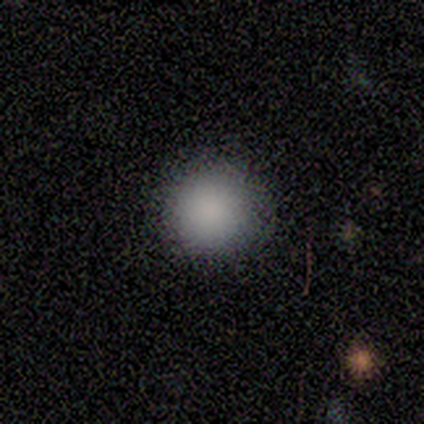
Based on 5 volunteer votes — Smooth or featured? smooth (100%)
How rounded? round (80%)
Merging? none (60%)